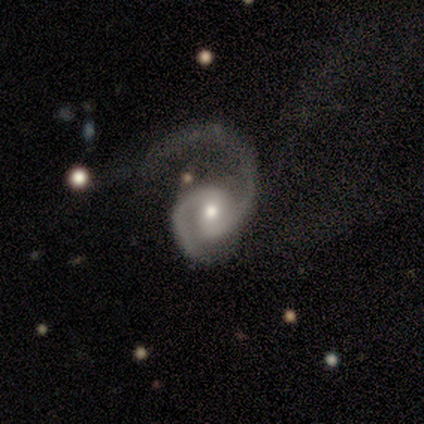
A featured or disk galaxy (100%) with a weak bar (50%, tied with no), 2 (100%) medium (71%) spiral arms (88%) and a moderate central bulge (75%).

Vote fractions:
- Smooth or featured? featured or disk: 100% / smooth: 0% / star or artifact: 0%
- Edge-on disk? no: 100% / yes: 0%
- Bar? weak: 50% (tied) / no: 50% (tied) / strong: 0%
- Spiral arms? yes: 88% / no: 12%
- Spiral winding? medium: 71% / loose: 29% / tight: 0%
- Spiral arm count? 2: 100% / 1: 0% / 3: 0% / 4: 0% / more than 4: 0% / can't tell: 0%
- Bulge size? moderate: 75% / small: 25% / dominant: 0% / large: 0% / none: 0%
- Merging? major disturbance: 62% / none: 25% / merger: 12% / minor disturbance: 0%